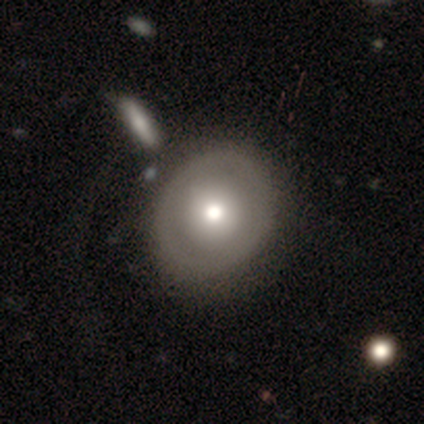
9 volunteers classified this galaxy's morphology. Q: Smooth or featured?
A: featured or disk (56%); runner-up: smooth (44%)
Q: Edge-on disk?
A: no (100%)
Q: Bar?
A: no (100%)
Q: Spiral arms?
A: no (80%); runner-up: yes (20%)
Q: Bulge size?
A: moderate (80%); runner-up: dominant (20%)
Q: Merging?
A: none (89%); runner-up: minor disturbance (11%)